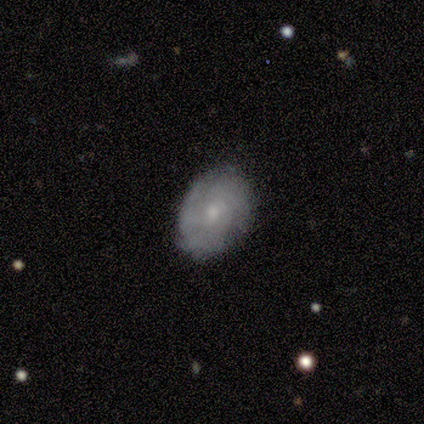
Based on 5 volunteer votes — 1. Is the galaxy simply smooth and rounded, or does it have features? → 80% featured or disk, 20% smooth, 0% star or artifact.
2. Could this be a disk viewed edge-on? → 100% no, 0% yes.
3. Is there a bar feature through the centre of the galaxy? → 75% no, 25% weak, 0% strong.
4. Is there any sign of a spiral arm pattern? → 50% yes (tied), 50% no (tied).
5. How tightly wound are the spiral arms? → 50% tight (tied), 50% medium (tied), 0% loose.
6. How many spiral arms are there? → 100% can't tell, 0% 1, 0% 2, 0% 3, 0% 4, 0% more than 4.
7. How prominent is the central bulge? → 50% small, 25% moderate, 25% none, 0% dominant, 0% large.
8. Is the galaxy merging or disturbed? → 80% none, 20% minor disturbance, 0% major disturbance, 0% merger.